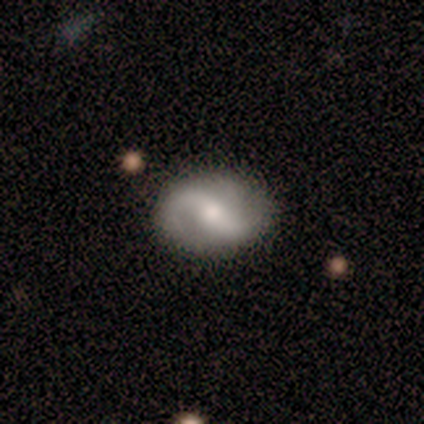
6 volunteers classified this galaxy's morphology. Overall: featured or disk (100%). Edge-on disk: no (100%). Bar: no (50%; strong 33%). Spiral arms: yes (100%). Spiral arm count: 2 (83%). Spiral winding: loose (100%). Bulge size: moderate (83%). Merging: none (83%).